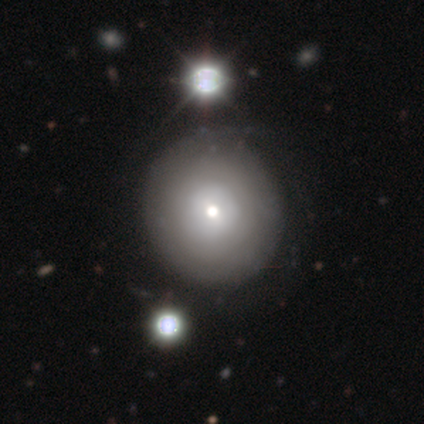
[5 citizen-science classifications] Smooth or featured: smooth — 40% (tied with featured or disk — 40%)
How rounded: round — 100%
Merging: none — 75% (major disturbance — 25%)